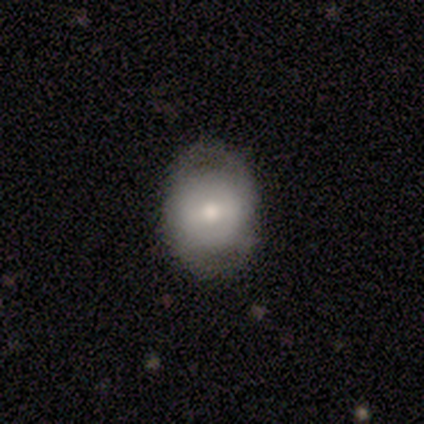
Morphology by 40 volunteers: smooth_or_featured: featured or disk (p=0.60) [alt: smooth p=0.28]
disk_edge_on: no (p=0.96) [alt: yes p=0.04]
bar: weak (p=0.57) [alt: strong p=0.30]
has_spiral_arms: yes (p=0.52) [alt: no p=0.48]
spiral_winding: tight (p=0.50) [tied with: medium p=0.50]
spiral_arm_count: 2 (p=0.50) [alt: can't tell p=0.33]
bulge_size: moderate (p=0.70) [alt: small p=0.17]
merging: none (p=0.69) [alt: minor disturbance p=0.23]